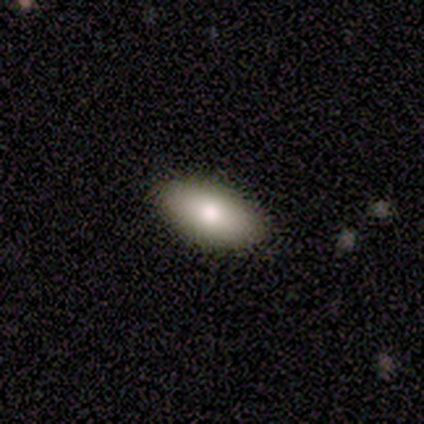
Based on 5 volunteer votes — Smooth or featured: smooth — 80% (featured or disk — 20%)
How rounded: in between — 75% (round — 25%)
Merging: none — 100%